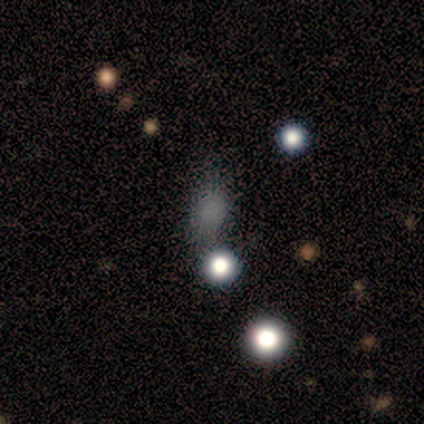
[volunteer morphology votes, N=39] Overall: smooth (69%). How rounded: in between (63%; round 26%). Merging: none (74%).